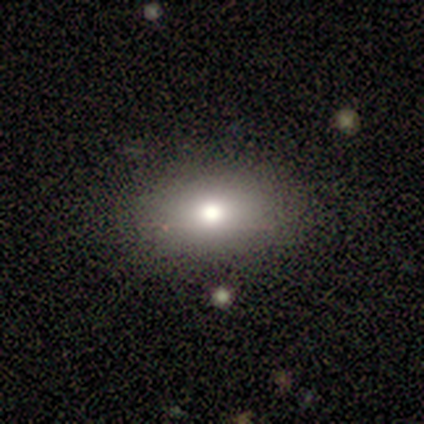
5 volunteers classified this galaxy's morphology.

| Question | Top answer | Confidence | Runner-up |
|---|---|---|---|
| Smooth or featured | smooth | 100% | — |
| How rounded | in between | 80% | cigar-shaped (20%) |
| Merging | none | 80% | minor disturbance (20%) |